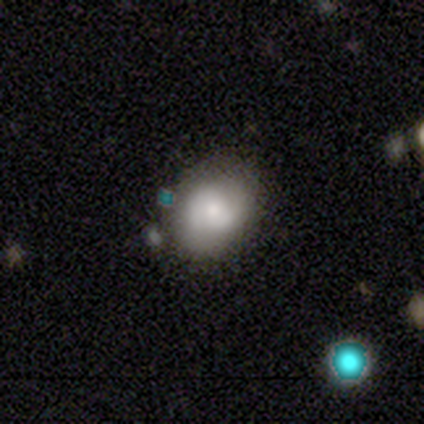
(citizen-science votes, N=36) Morphology: type=smooth (53%); roundness=round (68%); merging=none (71%).